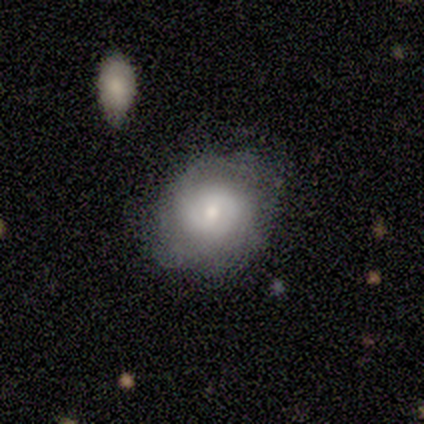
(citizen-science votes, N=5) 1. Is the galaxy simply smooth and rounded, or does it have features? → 60% smooth, 40% featured or disk, 0% star or artifact.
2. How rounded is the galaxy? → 67% round, 33% in between, 0% cigar-shaped.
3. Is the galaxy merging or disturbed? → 80% none, 20% minor disturbance, 0% major disturbance, 0% merger.